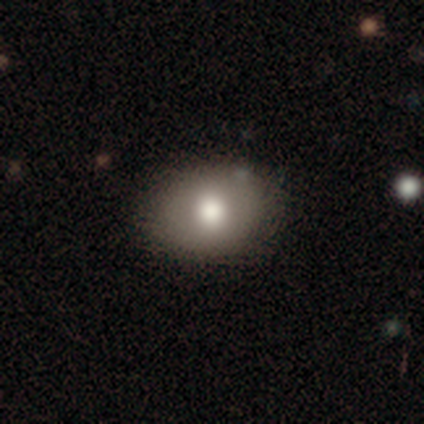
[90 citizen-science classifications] Volunteers were most divided on "how rounded": in between: 65%, round: 35%, cigar-shaped: 0%. More confident: merging — none (87%); smooth or featured — smooth (82%).